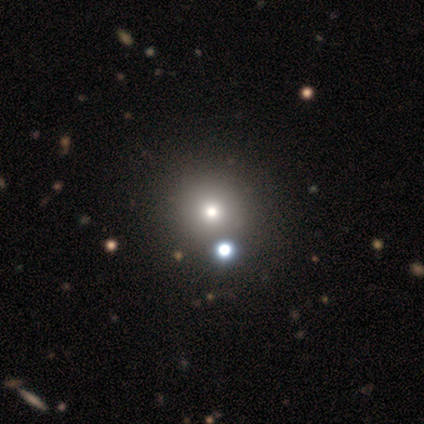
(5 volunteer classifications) Smooth or featured?
  - smooth: 80% *
  - star or artifact: 20%
  - featured or disk: 0%
How rounded?
  - round: 75% *
  - in between: 25%
  - cigar-shaped: 0%
Merging?
  - none: 75% *
  - merger: 25%
  - minor disturbance: 0%
  - major disturbance: 0%